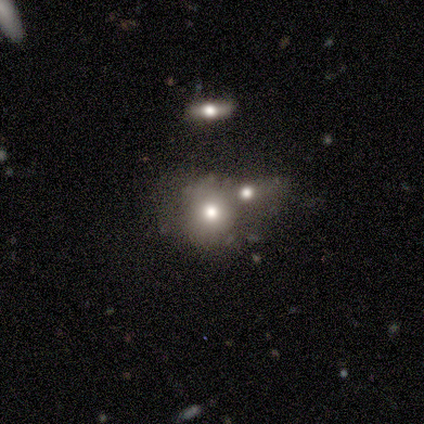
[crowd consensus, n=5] smooth_or_featured: smooth (p=0.60) [alt: featured or disk p=0.40]
how_rounded: round (p=0.67) [alt: in between p=0.33]
merging: merger (p=0.60) [alt: none p=0.40]